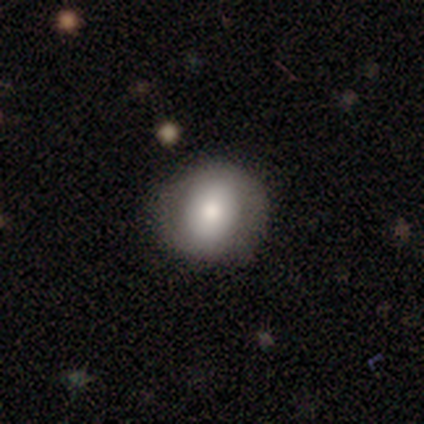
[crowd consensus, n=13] A smooth galaxy with no disk features (69%) that is round (78%). Merging: none (75%).